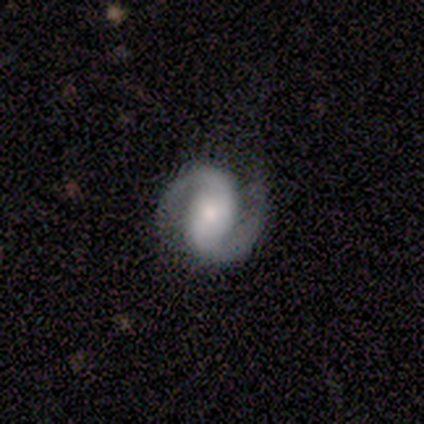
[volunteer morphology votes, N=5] smooth_or_featured: featured or disk (p=0.80) [alt: star or artifact p=0.20]
disk_edge_on: no (p=1.00)
bar: strong (p=0.50) [alt: weak p=0.25]
has_spiral_arms: yes (p=1.00)
spiral_winding: medium (p=0.75) [alt: tight p=0.25]
spiral_arm_count: 2 (p=1.00)
bulge_size: moderate (p=0.50) [alt: large p=0.25]
merging: none (p=1.00)